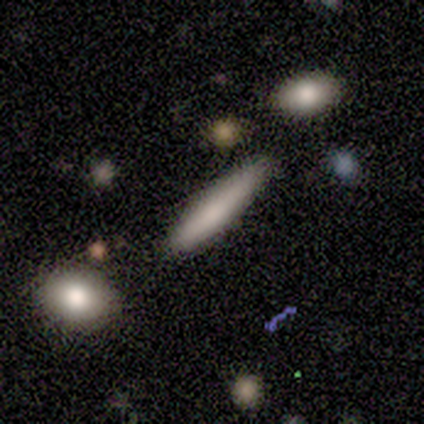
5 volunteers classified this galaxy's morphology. type=smooth (80%); roundness=cigar-shaped (100%); merging=none (60%).